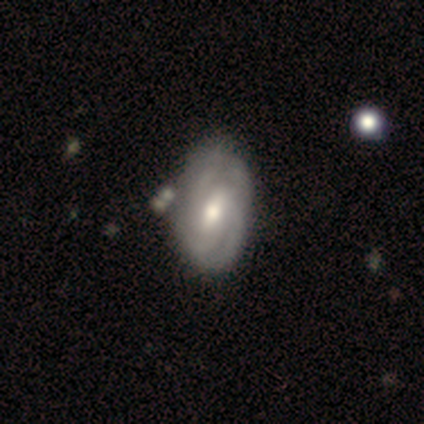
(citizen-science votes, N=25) featured or disk 60%, smooth 28%, star or artifact 12%. Down the decision tree: edge-on disk — no (87%); bar — weak (69%); spiral arms — yes (77%); spiral arm count — can't tell (30%); spiral winding — tight (60%); bulge size — moderate (69%); merging — none (59%).